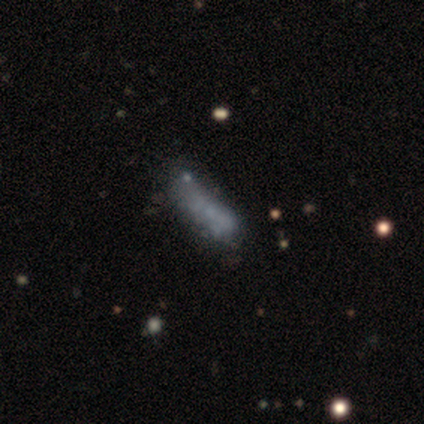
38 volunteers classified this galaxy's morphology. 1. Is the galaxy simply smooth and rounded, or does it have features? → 50% smooth, 37% featured or disk, 13% star or artifact.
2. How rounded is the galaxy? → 63% in between, 37% cigar-shaped, 0% round.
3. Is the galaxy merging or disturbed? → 36% none, 24% major disturbance, 12% minor disturbance, 9% merger.